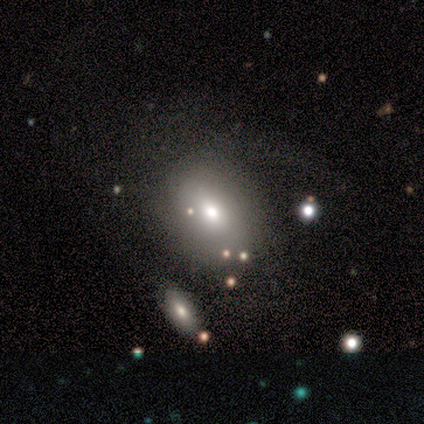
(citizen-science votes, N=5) smooth_or_featured: smooth (p=0.60) [alt: featured or disk p=0.40]
how_rounded: round (p=0.67) [alt: in between p=0.33]
merging: major disturbance (p=0.40) [alt: none p=0.20]